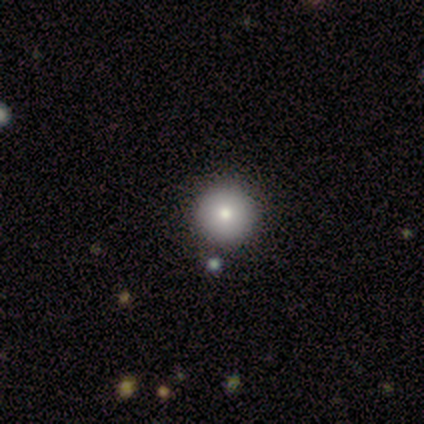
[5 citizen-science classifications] Smooth or featured: smooth — 100%
How rounded: round — 100%
Merging: none — 80% (merger — 20%)